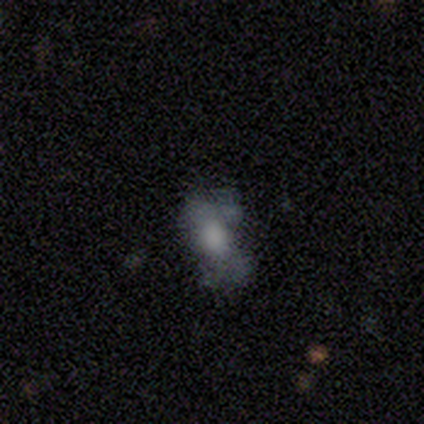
Smooth or featured?
  - smooth: 80% *
  - featured or disk: 20%
  - star or artifact: 0%
How rounded?
  - in between: 75% *
  - cigar-shaped: 25%
  - round: 0%
Merging?
  - none: 40% * (tied)
  - major disturbance: 40% * (tied)
  - minor disturbance: 20%
  - merger: 0%